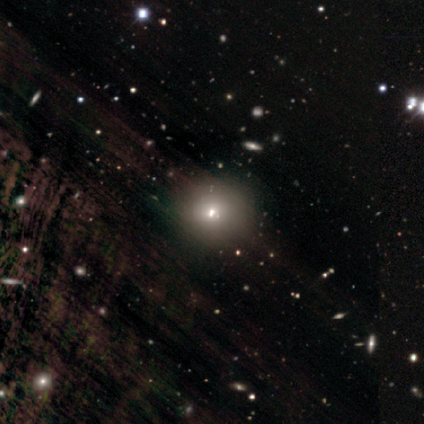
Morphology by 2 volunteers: smooth_or_featured: smooth (p=1.00)
how_rounded: round (p=1.00)
merging: none (p=1.00)